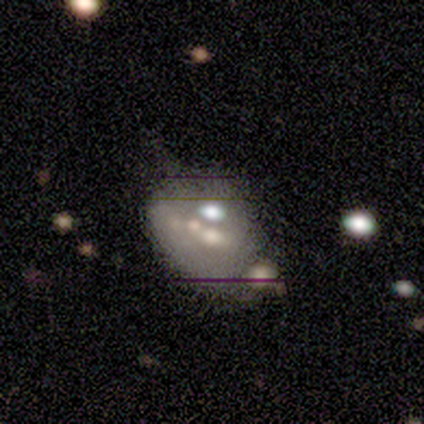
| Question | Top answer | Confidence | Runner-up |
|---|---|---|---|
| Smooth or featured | featured or disk | 54% | smooth (32%) |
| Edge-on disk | no | 95% | yes (5%) |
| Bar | no | 90% | weak (10%) |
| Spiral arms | no | 100% | — |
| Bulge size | small | 38% | moderate (29%) |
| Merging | merger | 37% | none (23%) |